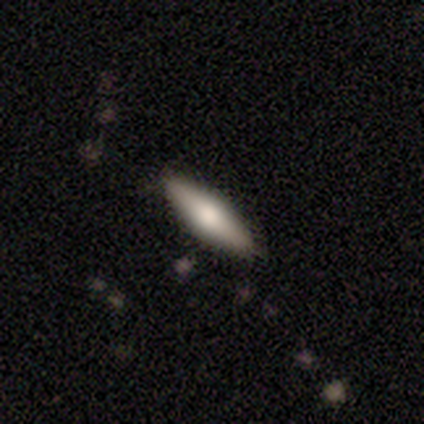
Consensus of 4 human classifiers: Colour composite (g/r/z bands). It shows a smooth galaxy with no disk features (75%) that is in between round and cigar-shaped (100%). Merging: none (100%).